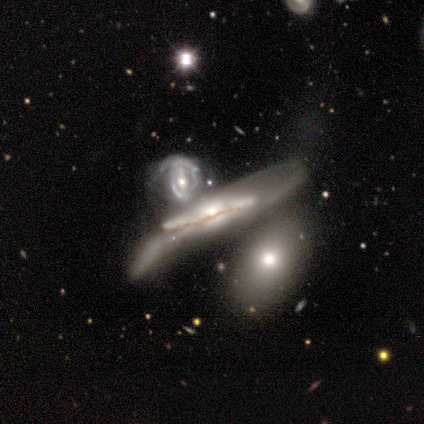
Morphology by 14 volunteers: Smooth or featured: featured or disk — 100%
Edge-on disk: yes — 79% (no — 21%)
Edge-on bulge: rounded — 82% (boxy — 9%)
Merging: major disturbance — 43% (merger — 29%)